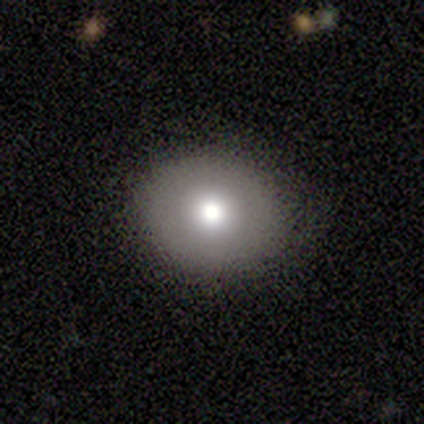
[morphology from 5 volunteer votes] smooth_or_featured: smooth (p=0.60) [alt: featured or disk p=0.20]
how_rounded: round (p=1.00)
merging: none (p=1.00)